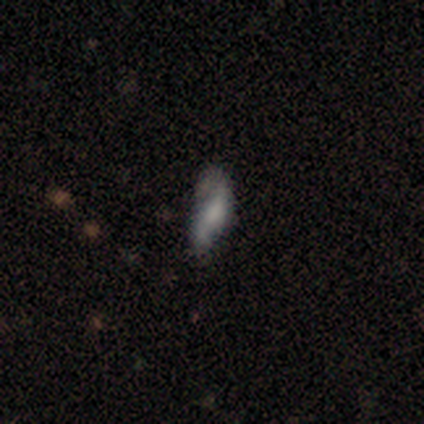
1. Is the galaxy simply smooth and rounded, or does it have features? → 100% smooth, 0% featured or disk, 0% star or artifact.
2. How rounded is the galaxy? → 100% in between, 0% round, 0% cigar-shaped.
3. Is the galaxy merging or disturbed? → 100% minor disturbance, 0% none, 0% major disturbance, 0% merger.